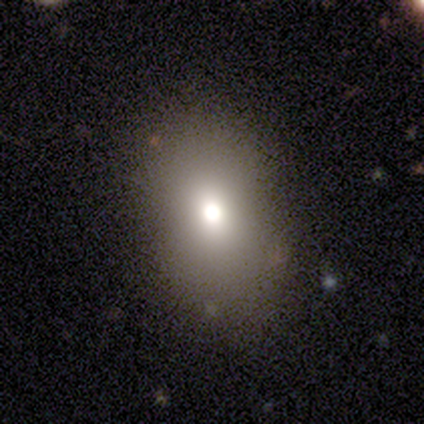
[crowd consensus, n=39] This is likely a smooth galaxy (79%). How rounded: likely in between (74%). Merging: clearly none (83%).